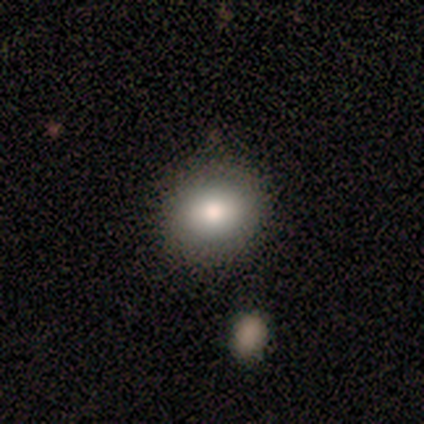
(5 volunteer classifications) Smooth or featured?
  - smooth: 100% *
  - featured or disk: 0%
  - star or artifact: 0%
How rounded?
  - round: 100% *
  - in between: 0%
  - cigar-shaped: 0%
Merging?
  - none: 100% *
  - minor disturbance: 0%
  - major disturbance: 0%
  - merger: 0%